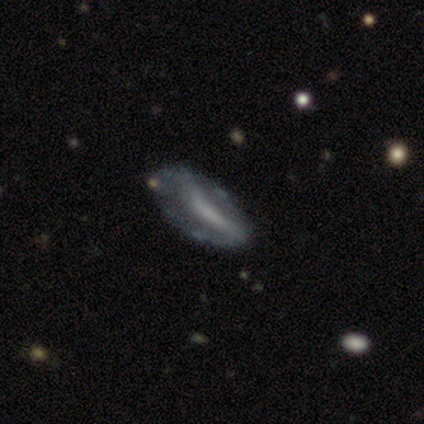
Volunteers were most divided on "bar": strong: 42%, no: 31%, weak: 27%. Remaining: edge-on disk — no (90%); smooth or featured — featured or disk (72%); spiral arms — no (69%); bulge size — none (69%); merging — none (47%).